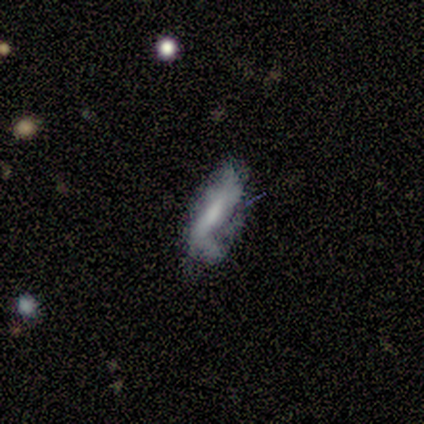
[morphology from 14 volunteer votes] Q: Smooth or featured?
A: featured or disk (57%); runner-up: smooth (29%)
Q: Edge-on disk?
A: no (100%)
Q: Bar?
A: strong (38%); tied with: no (38%)
Q: Spiral arms?
A: yes (75%); runner-up: no (25%)
Q: Spiral winding?
A: loose (83%); runner-up: medium (17%)
Q: Spiral arm count?
A: 1 (50%); tied with: 2 (50%)
Q: Bulge size?
A: moderate (50%); runner-up: small (25%)
Q: Merging?
A: minor disturbance (58%); runner-up: major disturbance (25%)